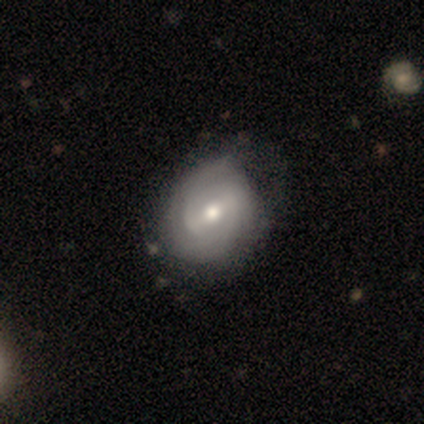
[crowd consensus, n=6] This appears to be a featured or disk galaxy (67%) with a strong bar (75%), tight (100%) spiral arms (100%) and a moderate central bulge (50%, tied with small). Merging: none (67%).